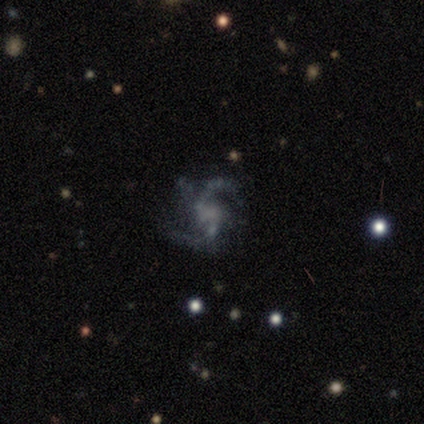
A featured or disk galaxy (67%) with a weak bar (50%, tied with no), 2 (50%, tied with 3) loose (100%) spiral arms (100%) and a small central bulge (50%, tied with none). Merging: none (100%).